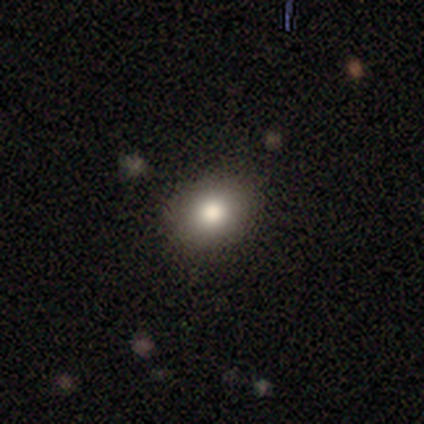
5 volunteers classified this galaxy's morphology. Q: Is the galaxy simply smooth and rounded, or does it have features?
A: smooth — 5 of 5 (100%).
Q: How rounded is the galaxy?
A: in between — 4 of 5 (80%).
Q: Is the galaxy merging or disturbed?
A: none — 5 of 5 (100%).